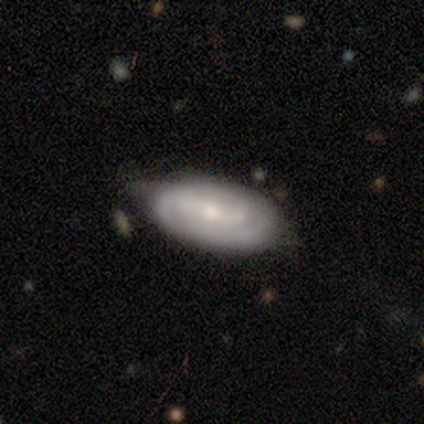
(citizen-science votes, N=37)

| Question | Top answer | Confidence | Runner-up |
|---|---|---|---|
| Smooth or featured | featured or disk | 78% | smooth (22%) |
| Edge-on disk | no | 97% | yes (3%) |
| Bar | weak | 43% | no (32%) |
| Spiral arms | yes | 100% | — |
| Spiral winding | tight | 64% | medium (32%) |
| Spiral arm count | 2 | 61% | can't tell (29%) |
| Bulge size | small | 82% | moderate (11%) |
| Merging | none | 70% | minor disturbance (24%) |